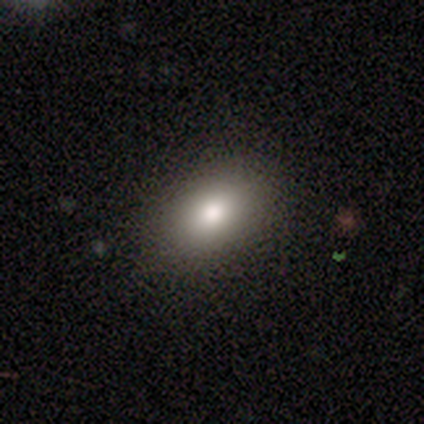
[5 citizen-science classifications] smooth-or-featured: smooth: 60% | featured or disk: 40% | star or artifact: 0%
  how-rounded: in between: 100% | round: 0% | cigar-shaped: 0%
  merging: none: 60% | minor disturbance: 20% | merger: 20% | major disturbance: 0%